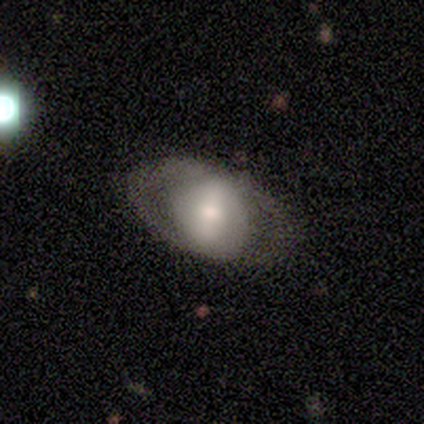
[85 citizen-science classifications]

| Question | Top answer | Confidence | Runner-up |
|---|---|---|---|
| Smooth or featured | featured or disk | 60% | smooth (34%) |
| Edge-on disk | no | 88% | yes (12%) |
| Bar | strong | 53% | weak (29%) |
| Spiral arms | no | 78% | yes (22%) |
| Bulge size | moderate | 47% | large (24%) |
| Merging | none | 72% | major disturbance (16%) |